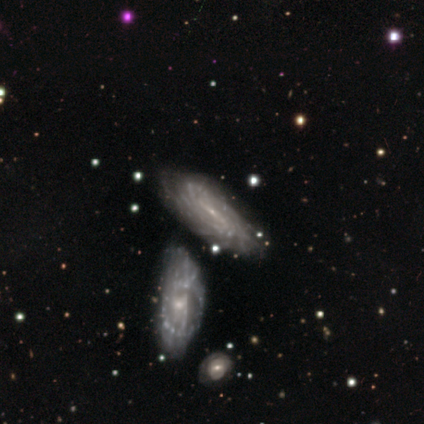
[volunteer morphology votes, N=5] Smooth or featured? featured or disk (80%)
Edge-on disk? no (75%)
Bar? strong (100%)
Spiral arms? yes (100%)
Spiral winding? tight (67%)
Spiral arm count? can't tell (100%)
Bulge size? small (100%)
Merging? none (60%)